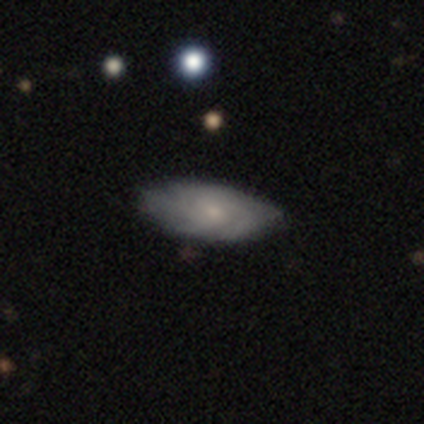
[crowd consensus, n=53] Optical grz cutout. It shows a featured or disk galaxy (64%) with no bar (91%), tight (57%) spiral arms (82%) and a small central bulge (68%). Merging: none (80%).